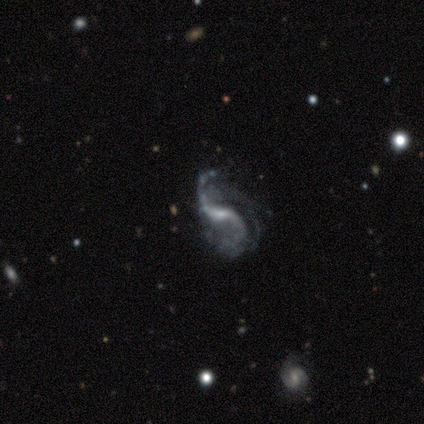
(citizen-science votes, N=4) This is clearly a featured or disk galaxy (100%). It is clearly not viewed edge-on (100%). Bar: clearly weak (100%). Spiral arm pattern: clearly yes (100%). Spiral arm count: possibly 2 (50%). Spiral winding: clearly loose (100%). Central bulge: likely small (75%). Merging: possibly none (50%, tied with major disturbance).